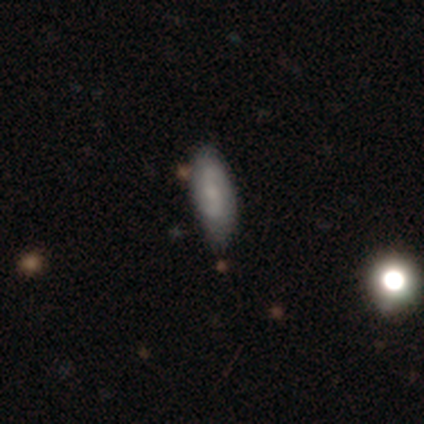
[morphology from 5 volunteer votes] type=smooth (60%); roundness=in between (100%); merging=minor disturbance (60%).